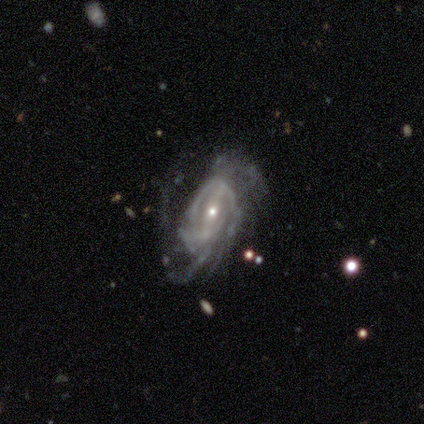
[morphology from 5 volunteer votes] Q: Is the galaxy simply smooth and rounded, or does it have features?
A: featured or disk — 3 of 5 (60%).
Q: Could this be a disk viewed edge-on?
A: no — 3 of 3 (100%).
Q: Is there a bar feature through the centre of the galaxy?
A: weak — 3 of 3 (100%).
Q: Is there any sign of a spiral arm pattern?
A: yes — 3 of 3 (100%).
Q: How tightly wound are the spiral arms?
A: tight — 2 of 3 (67%).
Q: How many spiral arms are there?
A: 2 — 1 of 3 (33%, tied with 3 and can't tell).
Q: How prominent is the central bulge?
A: small — 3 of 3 (100%).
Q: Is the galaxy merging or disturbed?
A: none — 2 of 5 (40%, tied with major disturbance).